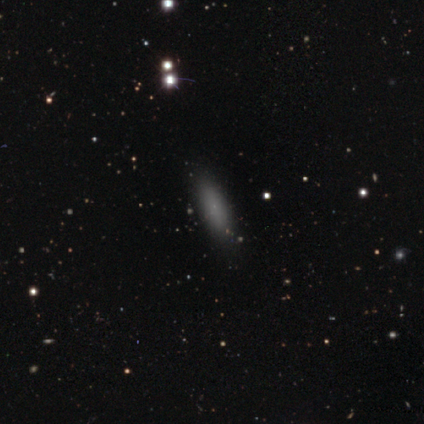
Smooth or featured? smooth (80%)
How rounded? in between (50%, tied with cigar-shaped)
Merging? none (100%)